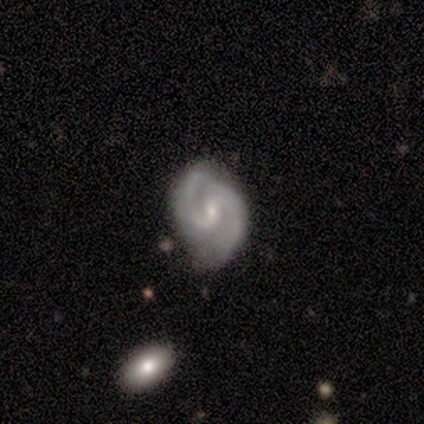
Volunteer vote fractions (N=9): Smooth or featured: featured or disk — 89% (star or artifact — 11%)
Edge-on disk: no — 100%
Bar: weak — 62% (no — 38%)
Spiral arms: yes — 100%
Spiral winding: medium — 50% (tight — 38%)
Spiral arm count: 2 — 100%
Bulge size: moderate — 50% (small — 38%)
Merging: none — 62% (minor disturbance — 25%)